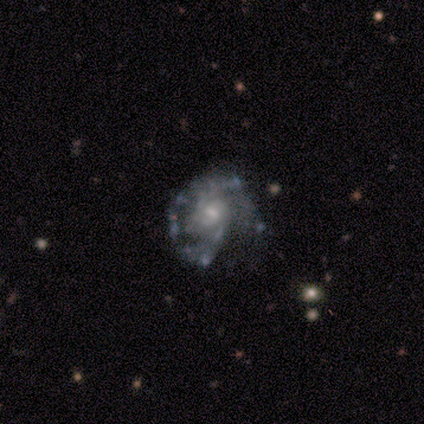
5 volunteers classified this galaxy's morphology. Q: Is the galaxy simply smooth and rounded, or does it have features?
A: featured or disk — 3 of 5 (60%).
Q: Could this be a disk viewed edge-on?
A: no — 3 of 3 (100%).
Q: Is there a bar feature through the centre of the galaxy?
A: weak — 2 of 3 (67%).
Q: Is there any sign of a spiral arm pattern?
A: yes — 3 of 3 (100%).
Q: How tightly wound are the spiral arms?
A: loose — 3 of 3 (100%).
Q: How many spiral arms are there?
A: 2 — 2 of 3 (67%).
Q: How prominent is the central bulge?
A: small — 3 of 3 (100%).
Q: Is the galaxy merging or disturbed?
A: none — 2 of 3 (67%).